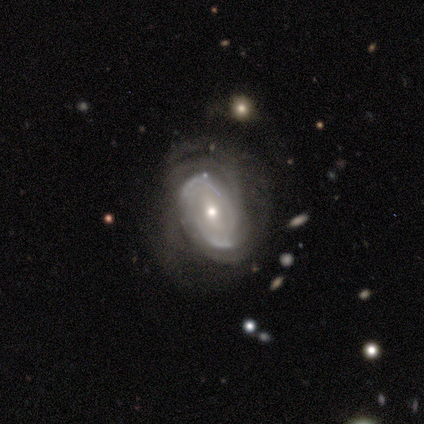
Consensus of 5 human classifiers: A featured or disk galaxy (100%) with a weak bar (60%), tight (80%) spiral arms (100%) and a moderate central bulge (60%).

Vote fractions:
- Smooth or featured? featured or disk: 100% / smooth: 0% / star or artifact: 0%
- Edge-on disk? no: 100% / yes: 0%
- Bar? weak: 60% / no: 40% / strong: 0%
- Spiral arms? yes: 100% / no: 0%
- Spiral winding? tight: 80% / medium: 20% / loose: 0%
- Spiral arm count? can't tell: 40% / 2: 20% / 3: 20% / 4: 20% / 1: 0% / more than 4: 0%
- Bulge size? moderate: 60% / small: 40% / dominant: 0% / large: 0% / none: 0%
- Merging? none: 80% / minor disturbance: 20% / major disturbance: 0% / merger: 0%